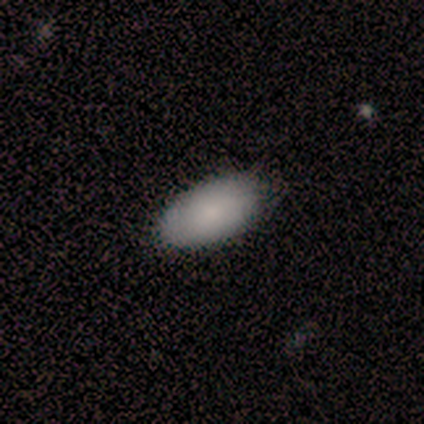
Smooth or featured: smooth — 82% (featured or disk — 15%)
How rounded: in between — 100%
Merging: none — 67% (minor disturbance — 8%)